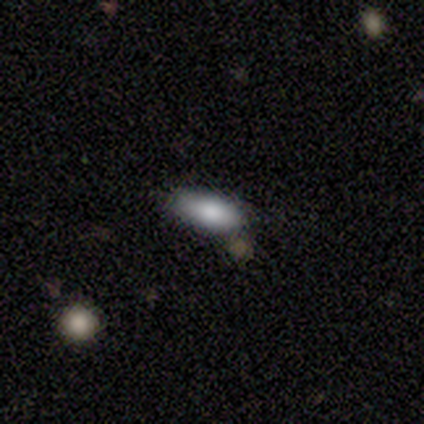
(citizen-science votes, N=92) Smooth or featured? 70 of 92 (76%) said smooth. How rounded? 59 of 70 (84%) said in between. Merging? 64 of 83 (77%) said none.